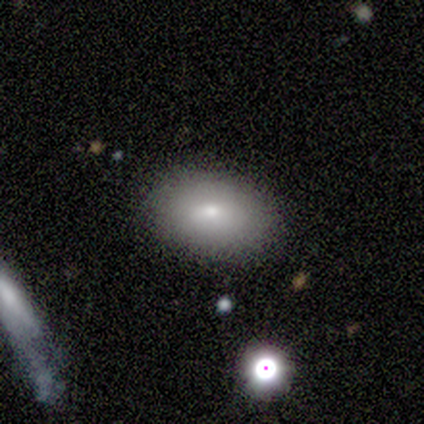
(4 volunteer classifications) Overall: smooth (100%). How rounded: in between (100%). Merging: none (75%).